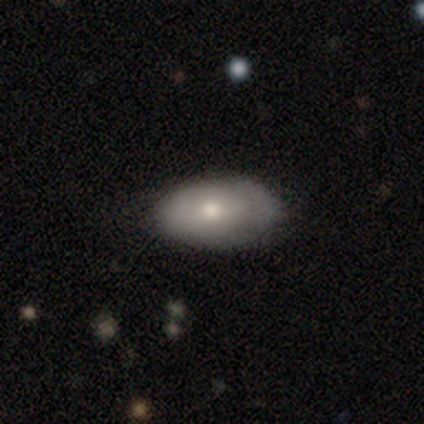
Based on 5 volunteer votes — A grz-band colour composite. It shows a smooth galaxy with no disk features (100%) that is in between round and cigar-shaped (100%). Merging: none (60%).